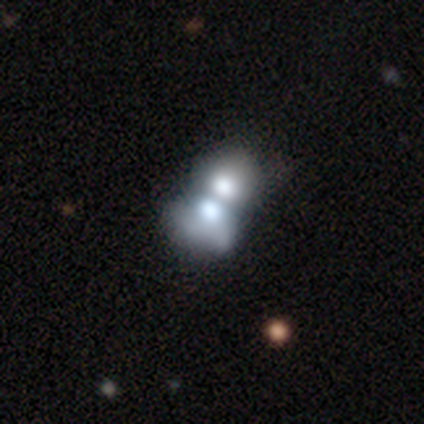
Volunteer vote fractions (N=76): A smooth galaxy with no disk features (59%) that is in between round and cigar-shaped (64%).

Vote fractions:
- Smooth or featured? smooth: 59% / featured or disk: 34% / star or artifact: 7%
- How rounded? in between: 64% / round: 36% / cigar-shaped: 0%
- Merging? merger: 86% / major disturbance: 3% / none: 0% / minor disturbance: 0%